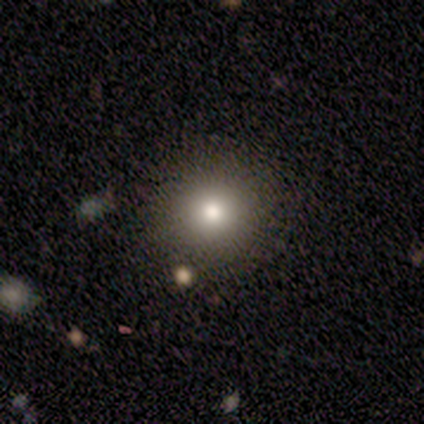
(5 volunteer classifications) Volunteers were most divided on "smooth or featured": smooth: 80%, star or artifact: 20%, featured or disk: 0%. More confident: how rounded — round (100%); merging — none (100%).